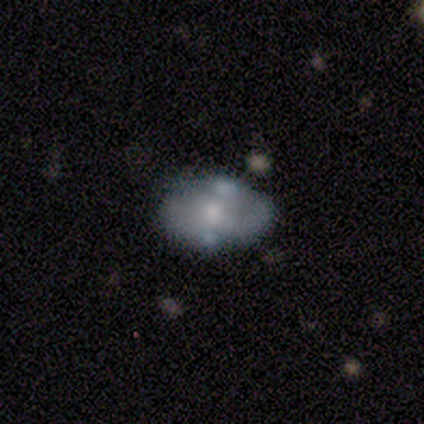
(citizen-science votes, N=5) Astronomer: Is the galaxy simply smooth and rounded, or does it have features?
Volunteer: featured or disk — 60% (runner-up: smooth, 40%).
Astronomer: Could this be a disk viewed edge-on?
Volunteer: no — 100%.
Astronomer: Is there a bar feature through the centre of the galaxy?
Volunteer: no — 67%.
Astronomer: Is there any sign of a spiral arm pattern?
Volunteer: no — 100%.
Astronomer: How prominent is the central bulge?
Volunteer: large — 33%, tied with moderate and small at 33%.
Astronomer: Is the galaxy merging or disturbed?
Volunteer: none — 100%.